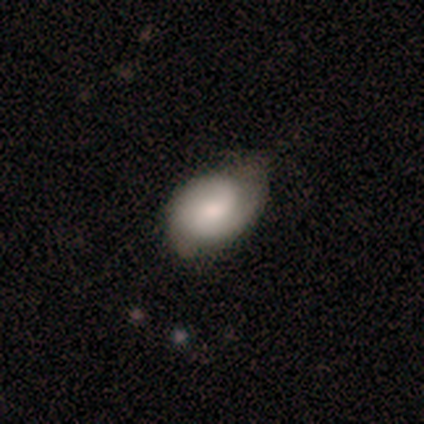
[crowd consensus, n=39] Volunteers were most divided on "merging": none: 53%, minor disturbance: 39%, merger: 5%, major disturbance: 3%. More confident: how rounded — in between (77%); smooth or featured — smooth (56%).